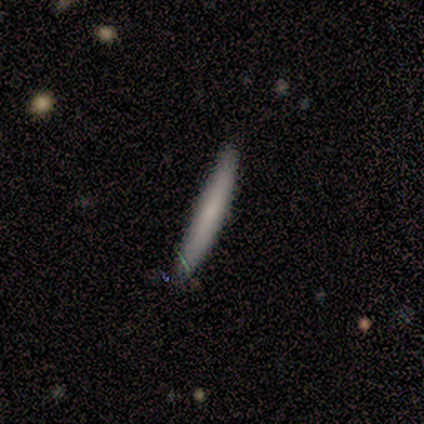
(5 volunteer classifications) A smooth galaxy with no disk features (80%) that is cigar-shaped (75%). Merging: minor disturbance (60%).